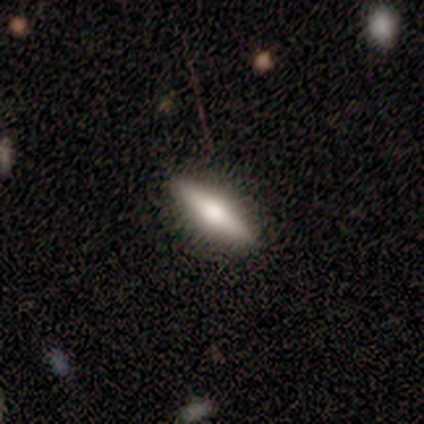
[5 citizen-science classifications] Smooth or featured? featured or disk (60%)
Edge-on disk? yes (100%)
Edge-on bulge? rounded (100%)
Merging? none (100%)